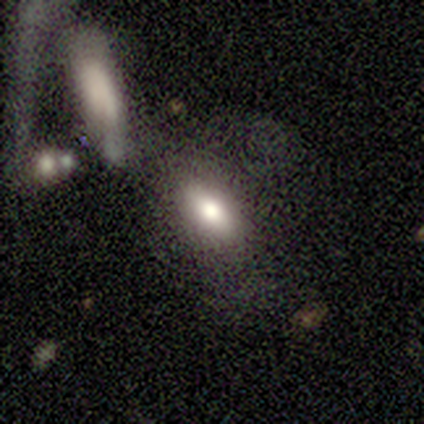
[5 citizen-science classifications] Q: Smooth or featured?
A: smooth (80%); runner-up: featured or disk (20%)
Q: How rounded?
A: in between (100%)
Q: Merging?
A: none (60%); runner-up: major disturbance (20%)